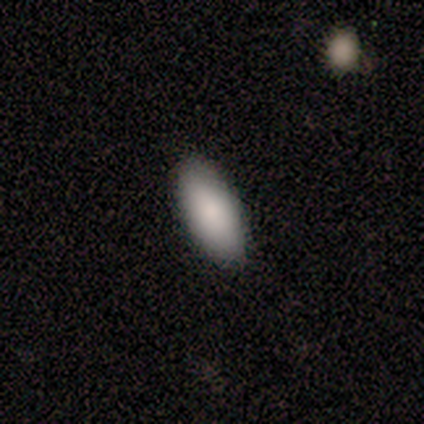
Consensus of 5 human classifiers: Smooth or featured?
  - smooth: 100% *
  - featured or disk: 0%
  - star or artifact: 0%
How rounded?
  - in between: 100% *
  - round: 0%
  - cigar-shaped: 0%
Merging?
  - none: 100% *
  - minor disturbance: 0%
  - major disturbance: 0%
  - merger: 0%